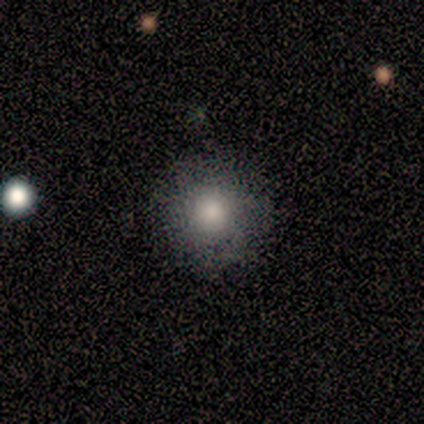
Overall: smooth (100%). How rounded: round (100%). Merging: none (75%).